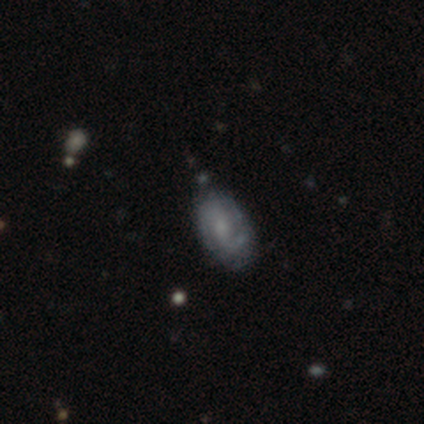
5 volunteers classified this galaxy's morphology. Smooth or featured?
  - smooth: 60% *
  - featured or disk: 40%
  - star or artifact: 0%
How rounded?
  - in between: 100% *
  - round: 0%
  - cigar-shaped: 0%
Merging?
  - minor disturbance: 60% *
  - none: 40%
  - major disturbance: 0%
  - merger: 0%